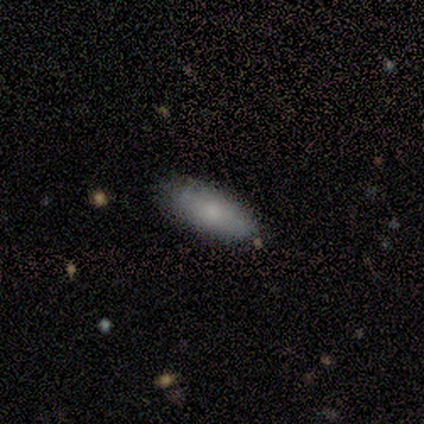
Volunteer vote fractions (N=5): smooth-or-featured: smooth: 100% | featured or disk: 0% | star or artifact: 0%
  how-rounded: in between: 60% | cigar-shaped: 40% | round: 0%
  merging: none: 80% | minor disturbance: 20% | major disturbance: 0% | merger: 0%